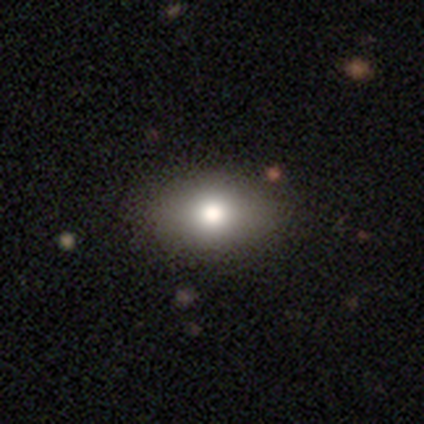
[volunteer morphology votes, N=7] Smooth or featured: smooth — 43% (featured or disk — 29%)
How rounded: in between — 100%
Merging: none — 80% (major disturbance — 20%)